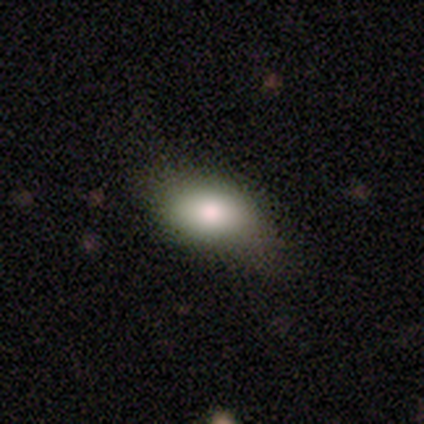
Morphology: type=smooth (100%); roundness=in between (100%); merging=none (57%).